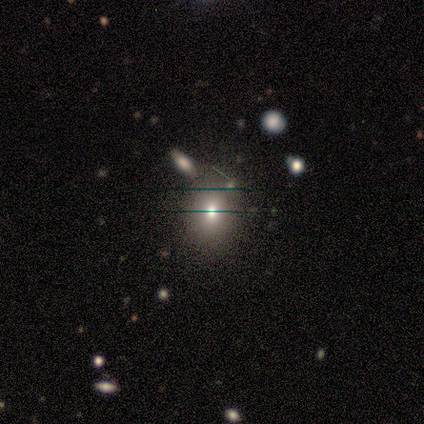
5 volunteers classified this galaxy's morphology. Smooth or featured?
  - smooth: 60% *
  - featured or disk: 20%
  - star or artifact: 20%
How rounded?
  - in between: 67% *
  - round: 33%
  - cigar-shaped: 0%
Merging?
  - none: 75% *
  - merger: 25%
  - minor disturbance: 0%
  - major disturbance: 0%